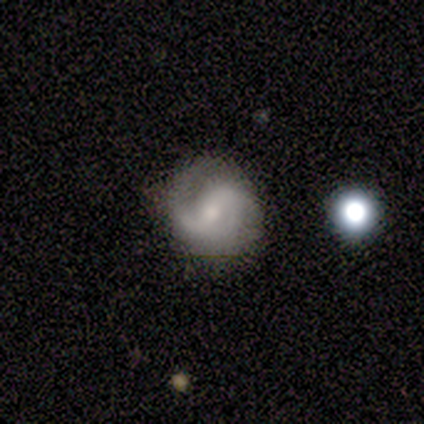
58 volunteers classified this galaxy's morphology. This is likely a featured or disk galaxy (74%). It is clearly not viewed edge-on (100%). Bar: possibly weak (51%). Spiral arm pattern: clearly yes (93%). Spiral arm count: likely 2 (78%). Spiral winding: possibly medium (45%). Central bulge: marginally moderate (44%, tied with small). Merging: likely none (71%).